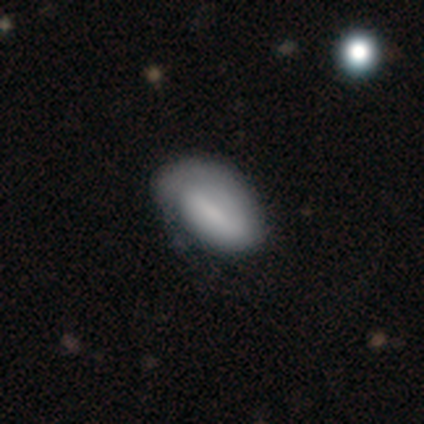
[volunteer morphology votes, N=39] This appears to be a smooth galaxy with no disk features (59%) that is in between round and cigar-shaped (87%). Merging: none (58%).